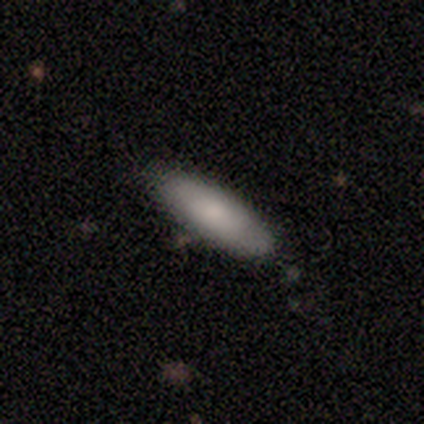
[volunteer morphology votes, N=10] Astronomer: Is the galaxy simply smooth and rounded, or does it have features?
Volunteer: smooth — 80%.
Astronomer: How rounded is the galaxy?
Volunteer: in between — 75%.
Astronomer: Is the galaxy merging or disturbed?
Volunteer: none — 80%.